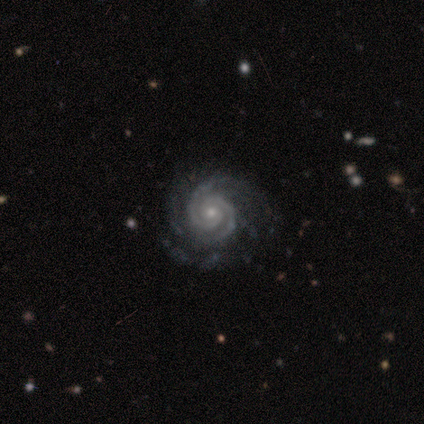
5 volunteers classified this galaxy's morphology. A featured or disk galaxy (100%) with no bar (80%), 2 (100%) tight (100%) spiral arms (100%) and a small central bulge (80%). Merging: none (80%).